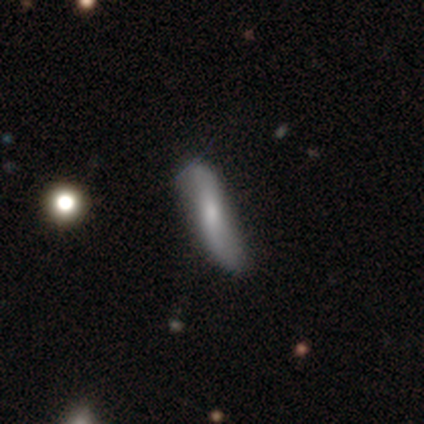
Volunteers were most divided on "bar": weak: 47%, strong: 40%, no: 13%. Remaining: spiral arms — yes (93%); spiral winding — loose (93%); spiral arm count — 2 (93%); edge-on disk — no (68%); smooth or featured — featured or disk (58%); merging — none (51%); bulge size — moderate (47%).